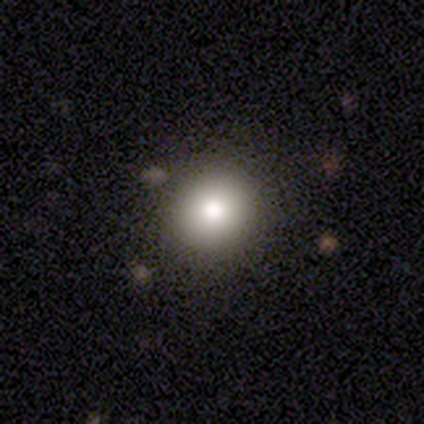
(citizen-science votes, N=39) Smooth or featured? smooth (77%)
How rounded? round (93%)
Merging? none (94%)